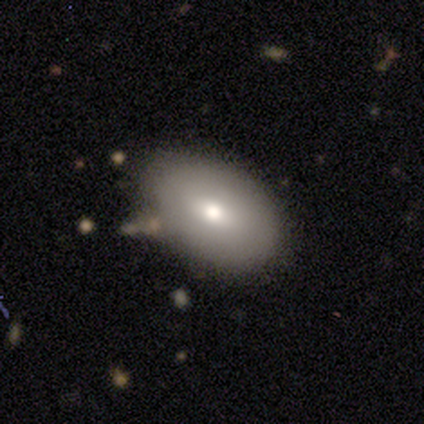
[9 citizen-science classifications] A smooth galaxy with no disk features (78%) that is in between round and cigar-shaped (100%).

Vote fractions:
- Smooth or featured? smooth: 78% / featured or disk: 22% / star or artifact: 0%
- How rounded? in between: 100% / round: 0% / cigar-shaped: 0%
- Merging? none: 67% / minor disturbance: 11% / major disturbance: 11% / merger: 11%